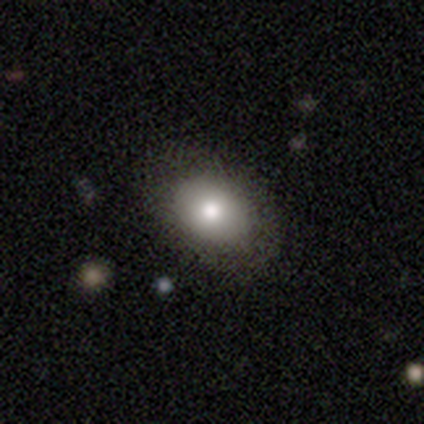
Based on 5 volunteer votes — smooth 100%, featured or disk 0%, star or artifact 0%. Down the decision tree: how rounded — in between (100%); merging — none (80%).